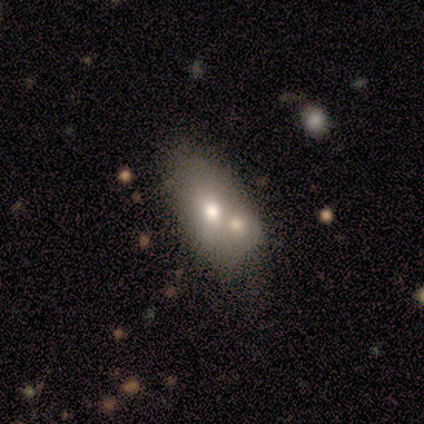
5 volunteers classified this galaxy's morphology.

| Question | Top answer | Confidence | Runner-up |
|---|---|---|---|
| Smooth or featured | smooth | 60% | featured or disk (40%) |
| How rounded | in between | 67% | cigar-shaped (33%) |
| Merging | merger | 80% | minor disturbance (20%) |